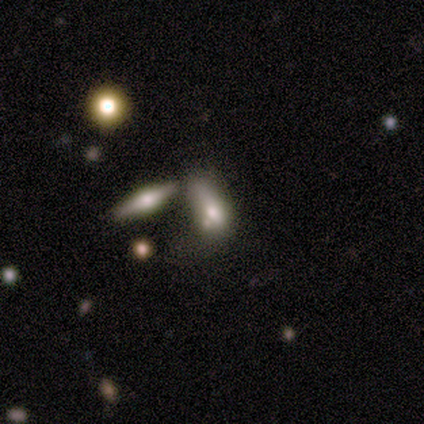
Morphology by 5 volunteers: Overall: smooth (40%, tied with featured or disk). How rounded: in between (100%). Merging: major disturbance (50%; none 25%).